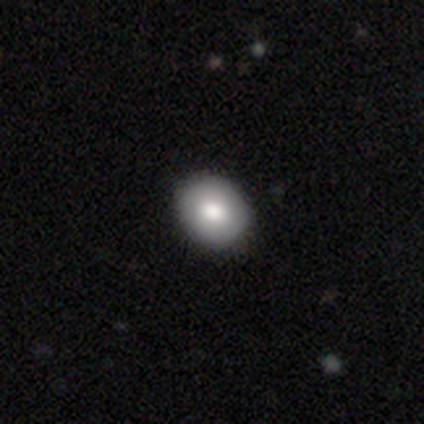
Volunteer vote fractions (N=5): Morphology: type=smooth (100%); roundness=round (60%); merging=none (80%).